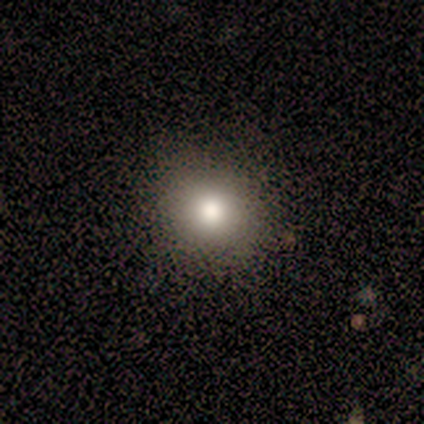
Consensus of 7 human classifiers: Smooth or featured?
  - smooth: 100% *
  - featured or disk: 0%
  - star or artifact: 0%
How rounded?
  - round: 100% *
  - in between: 0%
  - cigar-shaped: 0%
Merging?
  - none: 100% *
  - minor disturbance: 0%
  - major disturbance: 0%
  - merger: 0%